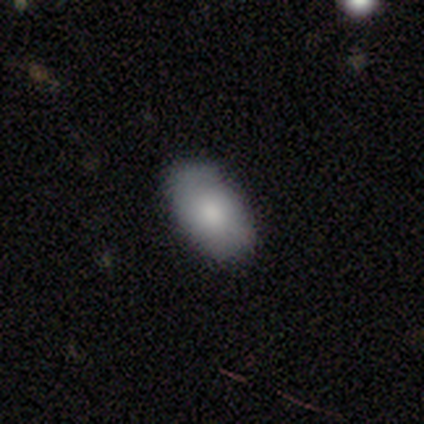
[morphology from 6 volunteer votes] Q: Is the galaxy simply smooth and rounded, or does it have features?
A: smooth — 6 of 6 (100%).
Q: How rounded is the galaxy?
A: in between — 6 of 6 (100%).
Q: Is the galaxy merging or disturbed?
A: none — 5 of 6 (83%).